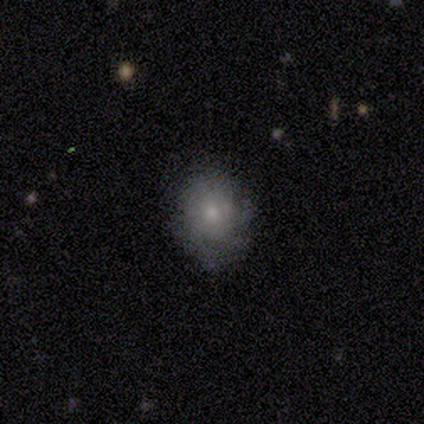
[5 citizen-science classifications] Smooth or featured?
  - featured or disk: 60% *
  - smooth: 40%
  - star or artifact: 0%
Edge-on disk?
  - no: 100% *
  - yes: 0%
Bar?
  - no: 100% *
  - strong: 0%
  - weak: 0%
Spiral arms?
  - yes: 67% *
  - no: 33%
Spiral winding?
  - tight: 50% * (tied)
  - medium: 50% * (tied)
  - loose: 0%
Spiral arm count?
  - 2: 50% * (tied)
  - can't tell: 50% * (tied)
  - 1: 0%
  - 3: 0%
  - 4: 0%
  - more than 4: 0%
Bulge size?
  - small: 67% *
  - moderate: 33%
  - dominant: 0%
  - large: 0%
  - none: 0%
Merging?
  - none: 60% *
  - minor disturbance: 20%
  - major disturbance: 20%
  - merger: 0%